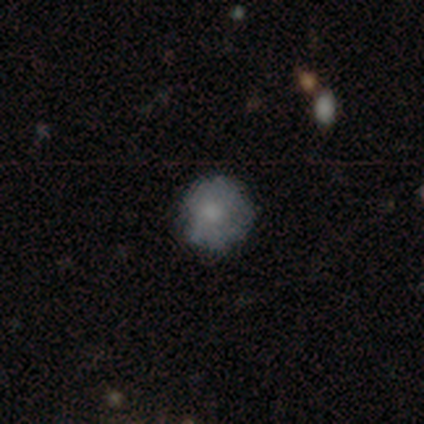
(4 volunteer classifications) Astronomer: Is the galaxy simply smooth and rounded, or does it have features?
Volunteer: smooth — 100%.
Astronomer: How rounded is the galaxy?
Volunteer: round — 100%.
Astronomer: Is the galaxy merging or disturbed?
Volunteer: none — 50%, tied with minor disturbance at 50%.